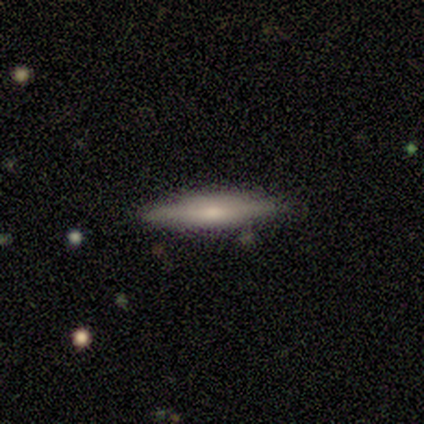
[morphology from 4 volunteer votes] This is clearly a smooth galaxy (100%). How rounded: clearly cigar-shaped (100%). Merging: likely none (75%).